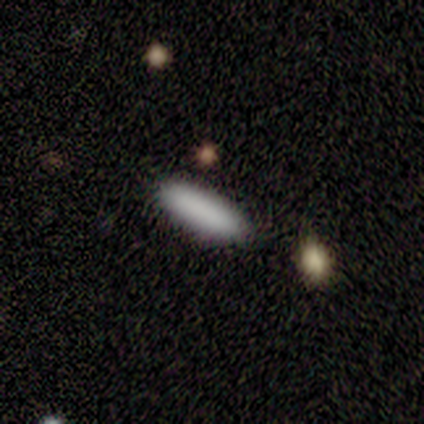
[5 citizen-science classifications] Q: Smooth or featured?
A: smooth (100%)
Q: How rounded?
A: cigar-shaped (80%); runner-up: in between (20%)
Q: Merging?
A: none (80%); runner-up: merger (20%)